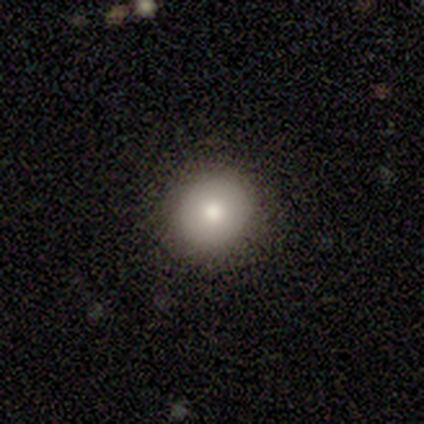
This is clearly a smooth galaxy (100%). How rounded: likely round (60%). Merging: clearly none (100%).